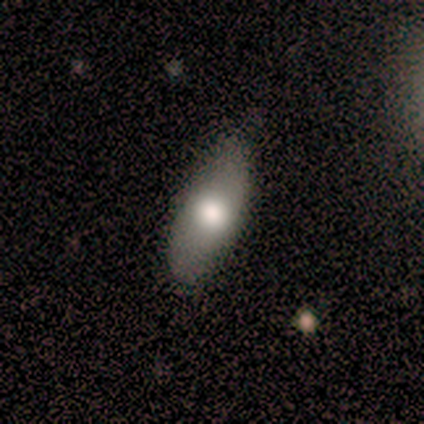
Volunteers were most divided on "smooth or featured": smooth: 60%, featured or disk: 40%, star or artifact: 0%. More confident: merging — none (80%); how rounded — in between (67%).